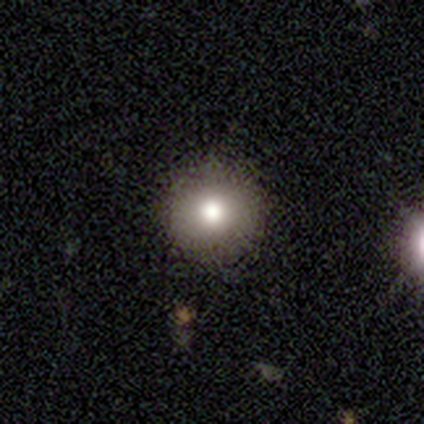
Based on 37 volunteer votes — smooth-or-featured: smooth: 76% | featured or disk: 14% | star or artifact: 11%
  how-rounded: round: 79% | in between: 21% | cigar-shaped: 0%
  merging: none: 85% | minor disturbance: 9% | major disturbance: 6% | merger: 0%